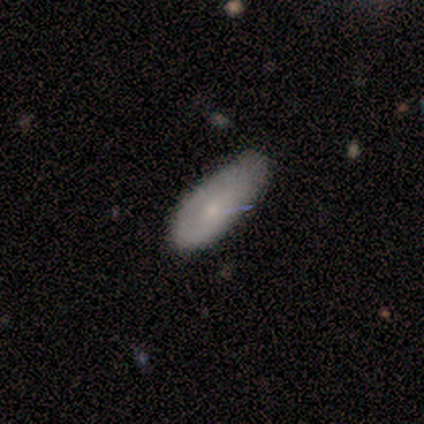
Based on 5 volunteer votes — Volunteers were most divided on "merging": none: 60%, minor disturbance: 40%, major disturbance: 0%, merger: 0%. More confident: how rounded — cigar-shaped (100%); smooth or featured — smooth (80%).